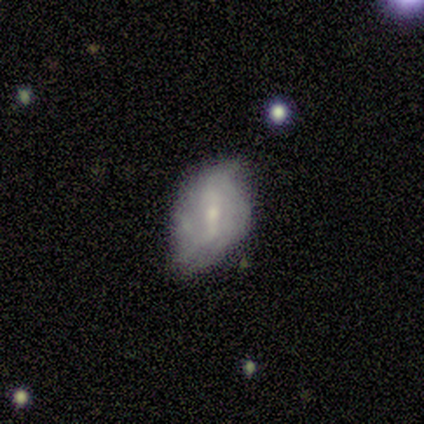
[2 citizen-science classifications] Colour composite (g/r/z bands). It shows a smooth galaxy with no disk features (50%, tied with featured or disk) that is in between round and cigar-shaped (100%). Merging: none (50%, tied with minor disturbance).